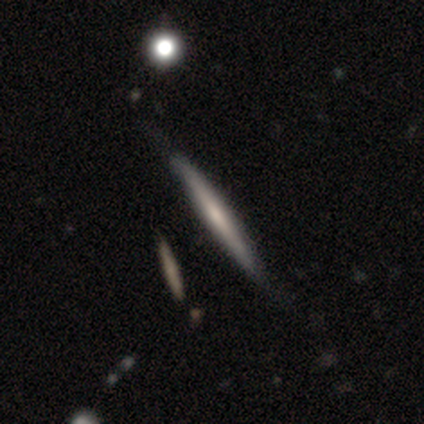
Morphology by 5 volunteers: featured or disk 60%, smooth 40%, star or artifact 0%. Down the decision tree: edge-on disk — yes (100%); edge-on bulge — none (67%); merging — none (100%).